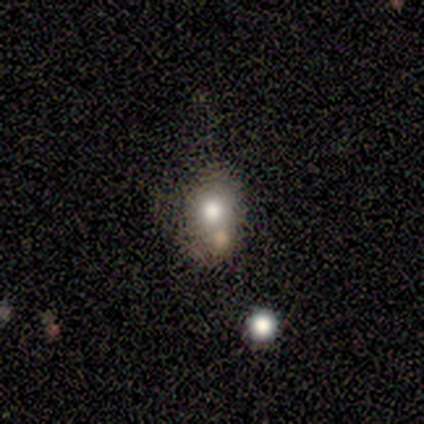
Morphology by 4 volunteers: This is likely a smooth galaxy (75%). How rounded: clearly round (100%). Merging: possibly none (50%).